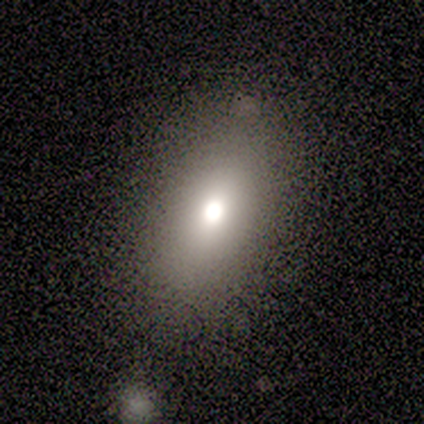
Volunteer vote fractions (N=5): A smooth galaxy with no disk features (80%) that is in between round and cigar-shaped (100%). Merging: none (80%).